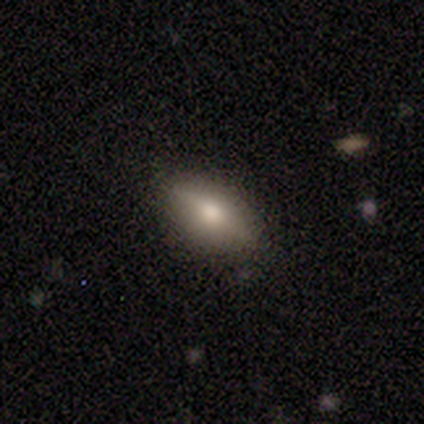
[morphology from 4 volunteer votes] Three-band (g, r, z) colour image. It shows a smooth galaxy with no disk features (50%, tied with featured or disk) that is in between round and cigar-shaped (50%, tied with cigar-shaped). Merging: none (75%).